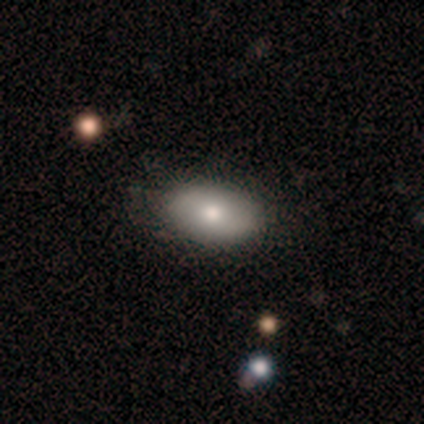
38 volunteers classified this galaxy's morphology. Smooth or featured?
  - smooth: 76% *
  - featured or disk: 21%
  - star or artifact: 3%
How rounded?
  - in between: 97% *
  - round: 3%
  - cigar-shaped: 0%
Merging?
  - none: 76% *
  - minor disturbance: 24%
  - major disturbance: 0%
  - merger: 0%